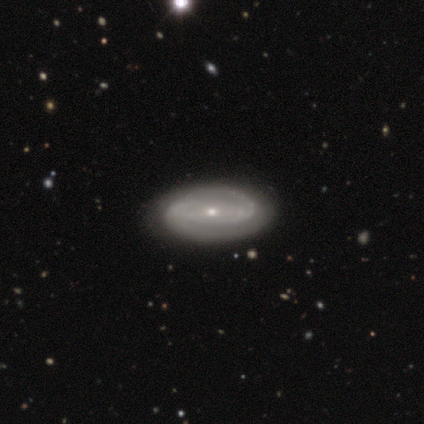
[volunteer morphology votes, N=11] smooth_or_featured: featured or disk (p=0.73) [alt: smooth p=0.27]
disk_edge_on: no (p=1.00)
bar: no (p=0.62) [alt: strong p=0.25]
has_spiral_arms: yes (p=0.88) [alt: no p=0.12]
spiral_winding: tight (p=0.71) [alt: medium p=0.29]
spiral_arm_count: 2 (p=0.57) [alt: can't tell p=0.29]
bulge_size: small (p=0.88) [alt: moderate p=0.12]
merging: none (p=0.55) [alt: minor disturbance p=0.45]